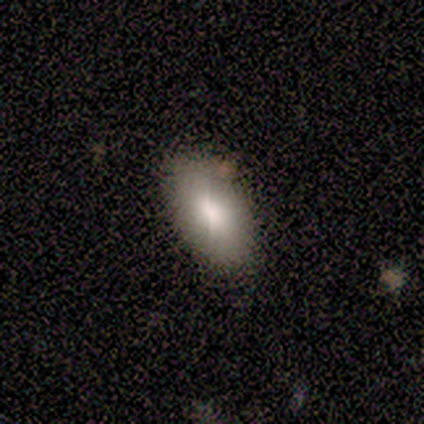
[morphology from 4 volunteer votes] Volunteers were most divided on "merging": none: 75%, minor disturbance: 25%, major disturbance: 0%, merger: 0%. More confident: smooth or featured — smooth (100%); how rounded — in between (100%).